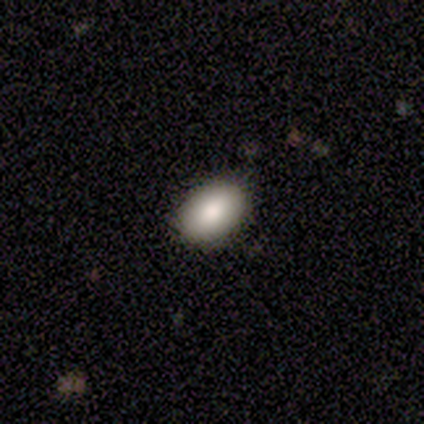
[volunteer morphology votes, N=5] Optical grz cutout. It shows a smooth galaxy with no disk features (100%) that is in between round and cigar-shaped (60%). Merging: none (100%).